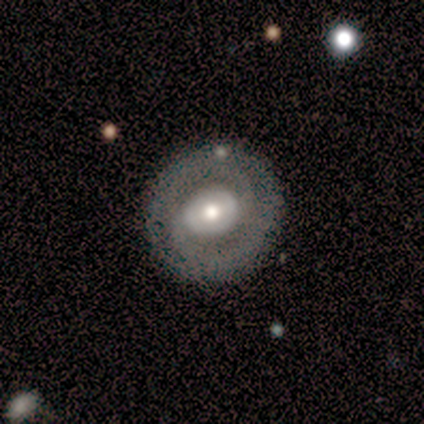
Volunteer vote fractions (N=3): Volunteers were most divided on "bar" (2-way tie): strong: 50%, weak: 50%, no: 0%; "spiral arms" (2-way tie): yes: 50%, no: 50%. More confident: edge-on disk — no (100%); spiral winding — medium (100%); spiral arm count — 2 (100%); bulge size — moderate (100%); merging — none (100%); smooth or featured — featured or disk (67%).